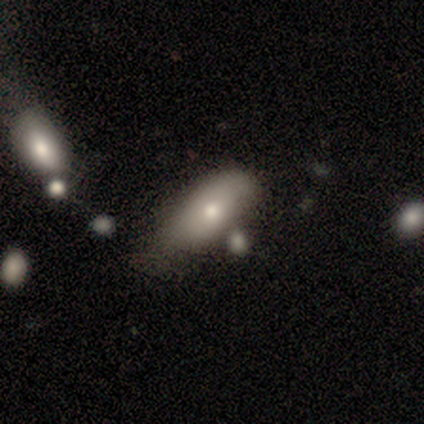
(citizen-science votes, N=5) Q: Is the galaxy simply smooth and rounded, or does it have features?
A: smooth — 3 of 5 (60%).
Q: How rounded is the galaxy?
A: in between — 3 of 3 (100%).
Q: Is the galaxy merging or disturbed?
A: none — 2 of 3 (67%).